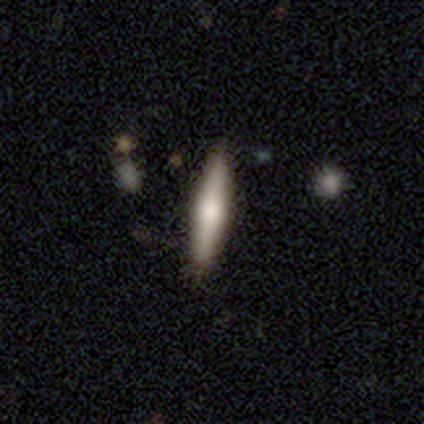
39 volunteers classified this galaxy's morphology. Smooth or featured? smooth (56%)
How rounded? cigar-shaped (95%)
Merging? none (82%)